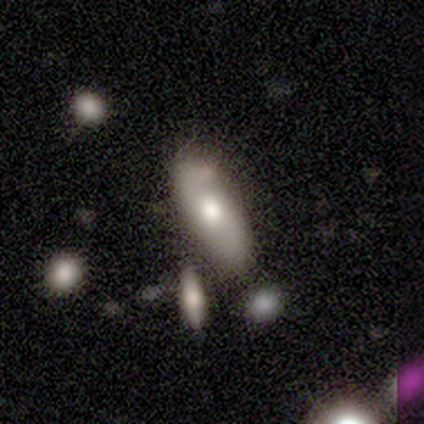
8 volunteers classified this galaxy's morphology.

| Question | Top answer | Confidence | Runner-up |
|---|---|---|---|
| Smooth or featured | smooth | 62% | featured or disk (38%) |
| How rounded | in between | 80% | cigar-shaped (20%) |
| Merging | none | 50% | minor disturbance (38%) |